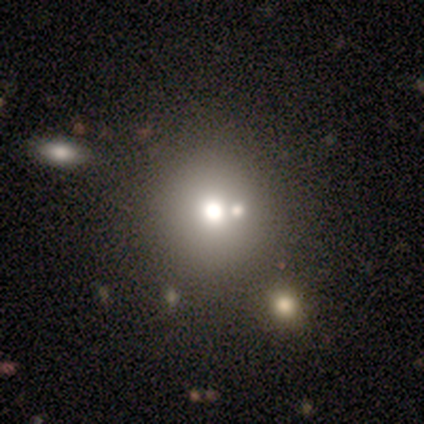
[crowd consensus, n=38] Volunteers were most divided on "merging": merger: 55%, none: 0%, minor disturbance: 0%, major disturbance: 0%. More confident: how rounded — round (100%); smooth or featured — smooth (76%).